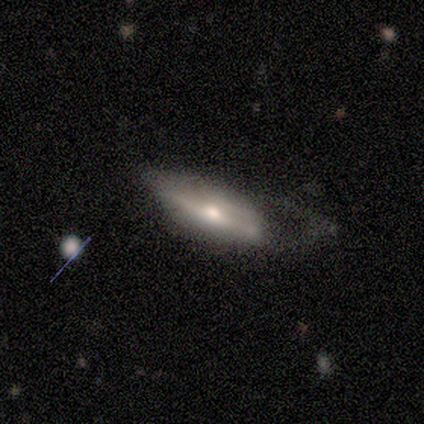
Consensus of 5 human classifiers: Smooth or featured? smooth (60%)
How rounded? in between (67%)
Merging? none (60%)